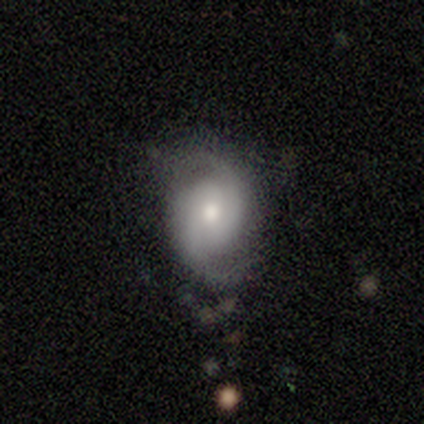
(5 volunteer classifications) A featured or disk galaxy (100%) with no bar (80%), 2 (100%) medium (80%) spiral arms (100%) and a small central bulge (60%).

Vote fractions:
- Smooth or featured? featured or disk: 100% / smooth: 0% / star or artifact: 0%
- Edge-on disk? no: 100% / yes: 0%
- Bar? no: 80% / weak: 20% / strong: 0%
- Spiral arms? yes: 100% / no: 0%
- Spiral winding? medium: 80% / loose: 20% / tight: 0%
- Spiral arm count? 2: 100% / 1: 0% / 3: 0% / 4: 0% / more than 4: 0% / can't tell: 0%
- Bulge size? small: 60% / moderate: 40% / dominant: 0% / large: 0% / none: 0%
- Merging? none: 100% / minor disturbance: 0% / major disturbance: 0% / merger: 0%